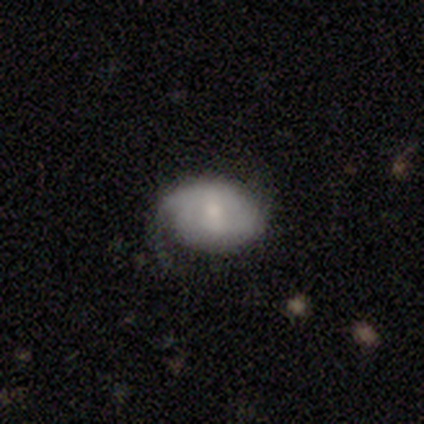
smooth_or_featured: smooth (p=0.62) [alt: featured or disk p=0.38]
how_rounded: in between (p=0.77) [alt: round p=0.19]
merging: none (p=0.46) [alt: minor disturbance p=0.42]